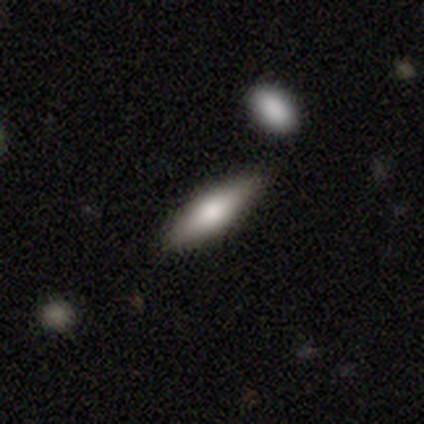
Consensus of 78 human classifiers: smooth_or_featured: smooth (p=0.76) [alt: featured or disk p=0.21]
how_rounded: cigar-shaped (p=0.58) [alt: in between p=0.42]
merging: none (p=0.49) [alt: merger p=0.11]